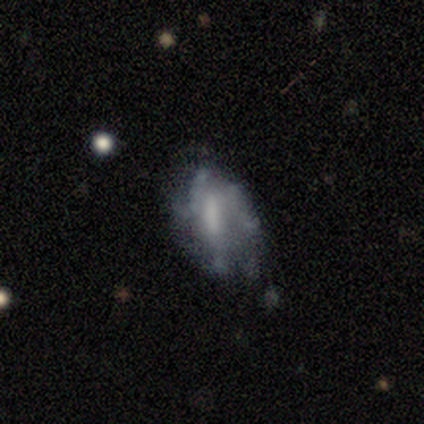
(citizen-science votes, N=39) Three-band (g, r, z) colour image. It shows a featured or disk galaxy (74%) with a strong bar (34%, tied with weak), no spiral arms (62%) and no central bulge (38%). Merging: none (43%).